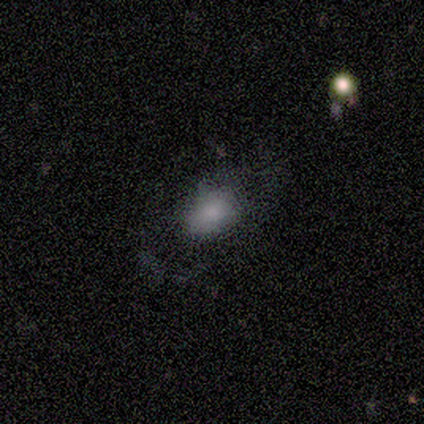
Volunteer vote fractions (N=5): Smooth or featured?
  - smooth: 60% *
  - featured or disk: 40%
  - star or artifact: 0%
How rounded?
  - in between: 100% *
  - round: 0%
  - cigar-shaped: 0%
Merging?
  - none: 100% *
  - minor disturbance: 0%
  - major disturbance: 0%
  - merger: 0%